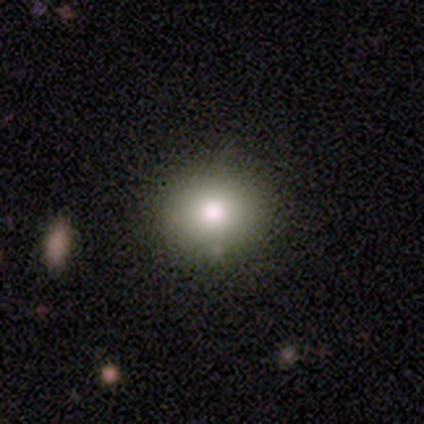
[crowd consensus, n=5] A smooth galaxy with no disk features (80%) that is round (75%).

Vote fractions:
- Smooth or featured? smooth: 80% / star or artifact: 20% / featured or disk: 0%
- How rounded? round: 75% / in between: 25% / cigar-shaped: 0%
- Merging? none: 100% / minor disturbance: 0% / major disturbance: 0% / merger: 0%